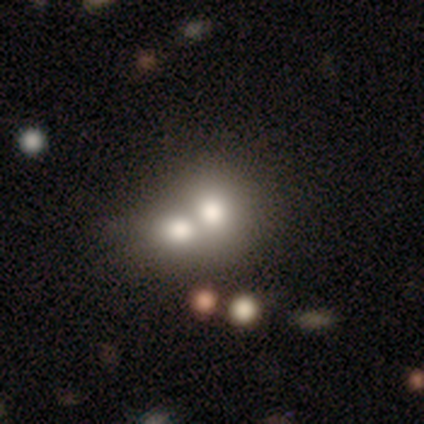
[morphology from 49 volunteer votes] type=smooth (61%); roundness=round (53%); merging=merger (83%).